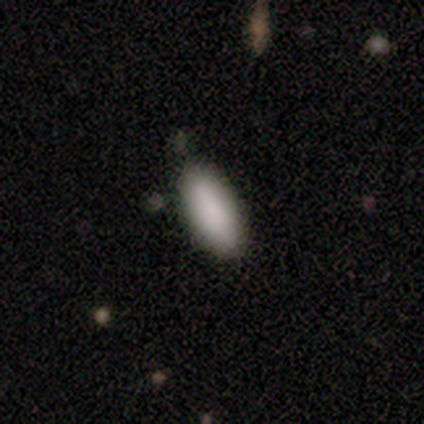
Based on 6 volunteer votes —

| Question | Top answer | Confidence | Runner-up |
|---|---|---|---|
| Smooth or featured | smooth | 100% | — |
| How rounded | in between | 67% | cigar-shaped (33%) |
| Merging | none | 100% | — |